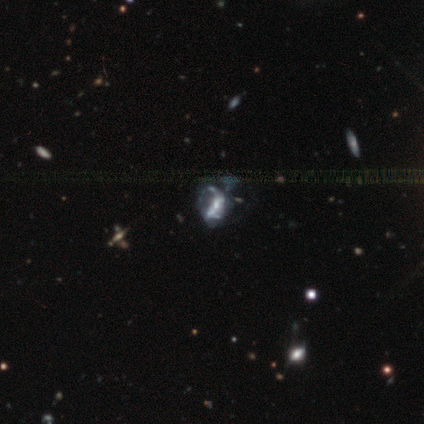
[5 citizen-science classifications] Q: Smooth or featured?
A: featured or disk (60%); runner-up: star or artifact (40%)
Q: Edge-on disk?
A: no (100%)
Q: Bar?
A: no (67%); runner-up: weak (33%)
Q: Spiral arms?
A: no (67%); runner-up: yes (33%)
Q: Bulge size?
A: moderate (33%); tied with: small (33%); none (33%)
Q: Merging?
A: minor disturbance (100%)